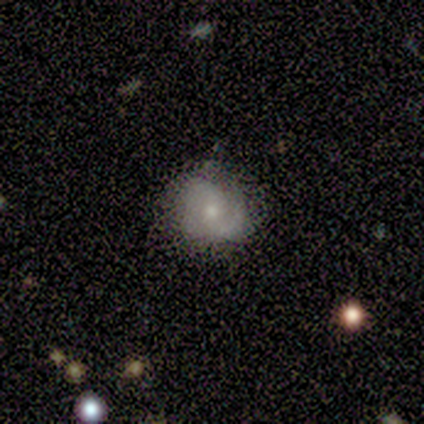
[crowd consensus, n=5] smooth-or-featured: featured or disk: 100% | smooth: 0% | star or artifact: 0%
  disk-edge-on: no: 100% | yes: 0%
    bar: no: 100% | strong: 0% | weak: 0%
    has-spiral-arms: yes: 80% | no: 20%
      spiral-winding: tight: 50% (tied) | medium: 50% (tied) | loose: 0%
      spiral-arm-count: 2: 50% | 3: 25% | can't tell: 25% | 1: 0% | 4: 0% | more than 4: 0%
    bulge-size: small: 80% | moderate: 20% | dominant: 0% | large: 0% | none: 0%
  merging: minor disturbance: 60% | none: 40% | major disturbance: 0% | merger: 0%